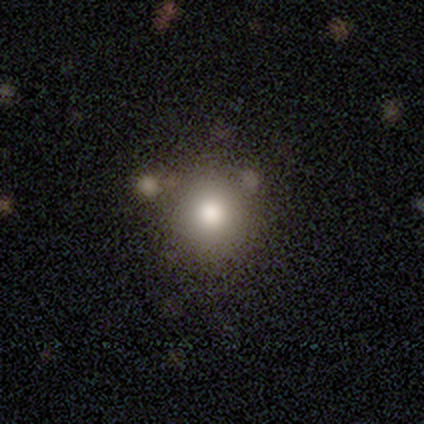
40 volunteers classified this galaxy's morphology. Volunteers were most divided on "merging": none: 55%, minor disturbance: 5%, major disturbance: 3%, merger: 3%. More confident: how rounded — round (94%); smooth or featured — smooth (88%).